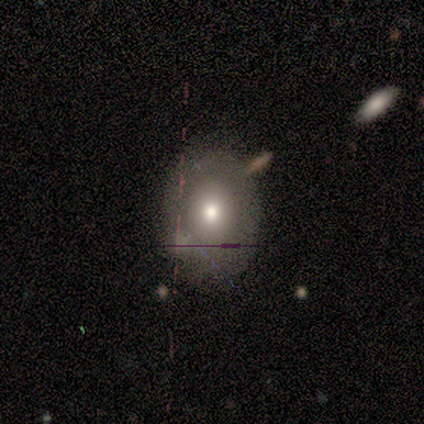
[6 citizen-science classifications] A smooth galaxy with no disk features (100%) that is round (50%, tied with in between). Merging: none (67%).